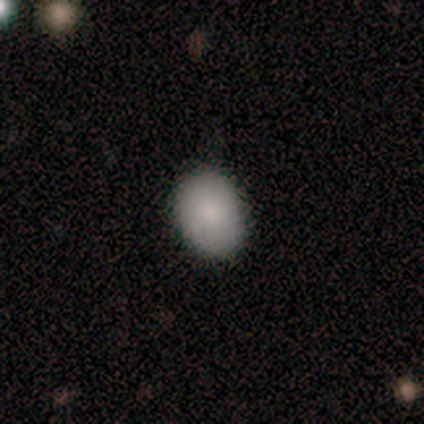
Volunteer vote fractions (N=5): A smooth galaxy with no disk features (100%) that is in between round and cigar-shaped (60%). Merging: none (100%).